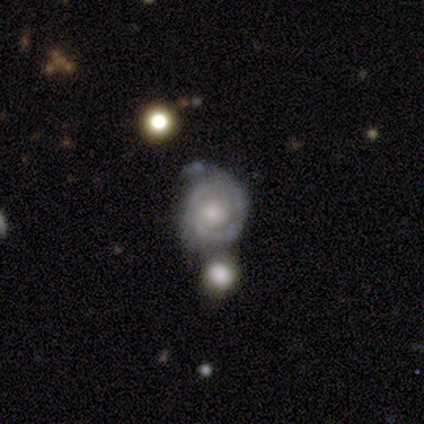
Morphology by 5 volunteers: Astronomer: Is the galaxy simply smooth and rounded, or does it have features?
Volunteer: featured or disk — 100%.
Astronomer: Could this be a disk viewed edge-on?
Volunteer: no — 100%.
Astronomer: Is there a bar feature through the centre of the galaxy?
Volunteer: no — 80%.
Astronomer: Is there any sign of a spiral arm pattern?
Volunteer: yes — 80%.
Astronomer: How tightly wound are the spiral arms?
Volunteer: tight — 75%.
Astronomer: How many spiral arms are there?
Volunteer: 2 — 50%, tied with can't tell at 50%.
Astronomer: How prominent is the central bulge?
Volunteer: moderate — 60% (runner-up: small, 40%).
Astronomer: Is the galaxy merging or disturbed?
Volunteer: none — 60%.